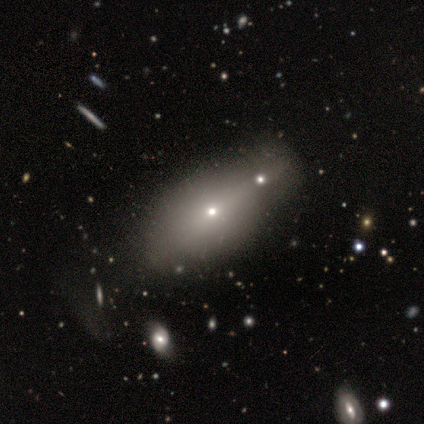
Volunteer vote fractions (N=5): Q: Smooth or featured?
A: smooth (80%); runner-up: featured or disk (20%)
Q: How rounded?
A: in between (50%); tied with: cigar-shaped (50%)
Q: Merging?
A: minor disturbance (40%); tied with: merger (40%)